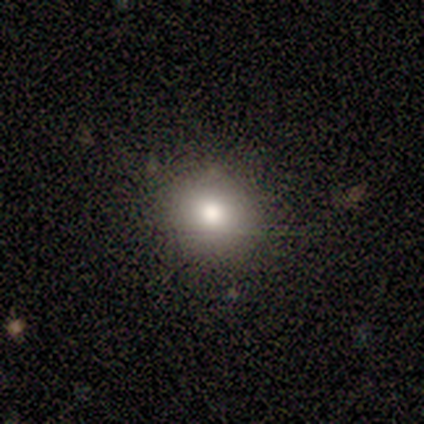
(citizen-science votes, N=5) Smooth or featured? 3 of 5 (60%) said smooth. How rounded? 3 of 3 (100%) said round. Merging? 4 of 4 (100%) said none.